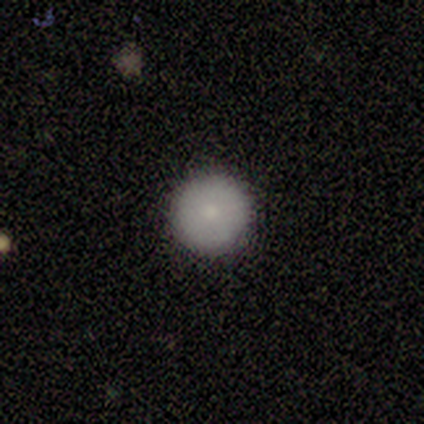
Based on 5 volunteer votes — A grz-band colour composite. It shows a smooth galaxy with no disk features (80%) that is round (100%). Merging: none (100%).